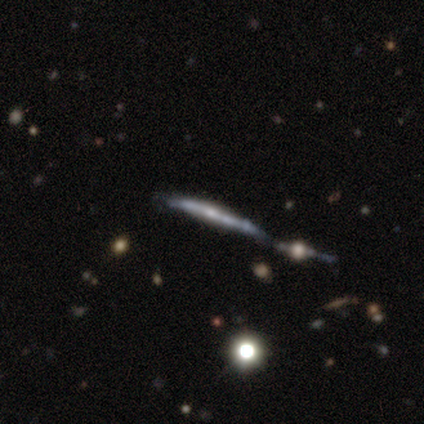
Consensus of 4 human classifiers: Smooth or featured?
  - featured or disk: 50% *
  - smooth: 25%
  - star or artifact: 25%
Edge-on disk?
  - yes: 100% *
  - no: 0%
Edge-on bulge?
  - none: 50% * (tied)
  - rounded: 50% * (tied)
  - boxy: 0%
Merging?
  - none: 67% *
  - major disturbance: 33%
  - minor disturbance: 0%
  - merger: 0%